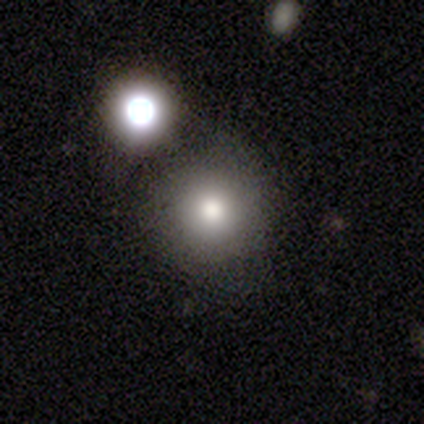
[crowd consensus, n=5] This is likely a smooth galaxy (60%). How rounded: likely round (67%). Merging: clearly none (100%).